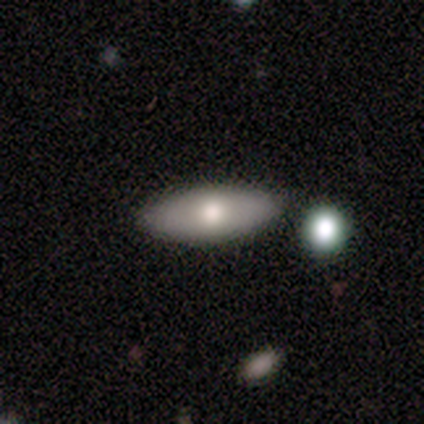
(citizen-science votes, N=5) smooth-or-featured: smooth: 60% | featured or disk: 40% | star or artifact: 0%
  how-rounded: in between: 67% | cigar-shaped: 33% | round: 0%
  merging: none: 80% | merger: 20% | minor disturbance: 0% | major disturbance: 0%